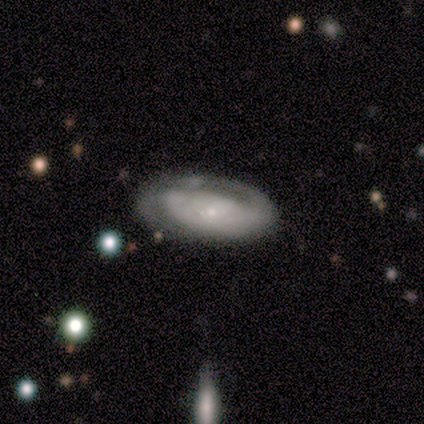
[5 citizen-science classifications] Smooth or featured?
  - featured or disk: 80% *
  - smooth: 20%
  - star or artifact: 0%
Edge-on disk?
  - no: 100% *
  - yes: 0%
Bar?
  - no: 100% *
  - strong: 0%
  - weak: 0%
Spiral arms?
  - yes: 75% *
  - no: 25%
Spiral winding?
  - tight: 67% *
  - medium: 33%
  - loose: 0%
Spiral arm count?
  - 2: 67% *
  - can't tell: 33%
  - 1: 0%
  - 3: 0%
  - 4: 0%
  - more than 4: 0%
Bulge size?
  - small: 75% *
  - none: 25%
  - dominant: 0%
  - large: 0%
  - moderate: 0%
Merging?
  - none: 100% *
  - minor disturbance: 0%
  - major disturbance: 0%
  - merger: 0%